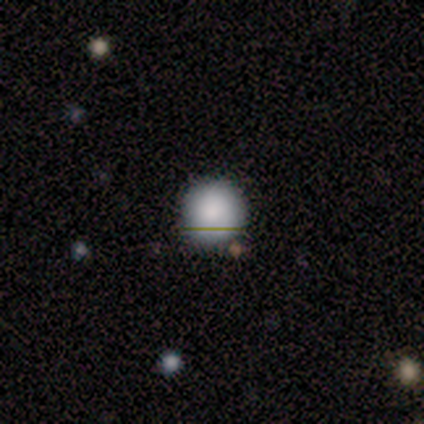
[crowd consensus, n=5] Overall: smooth (100%). How rounded: round (100%). Merging: none (80%).